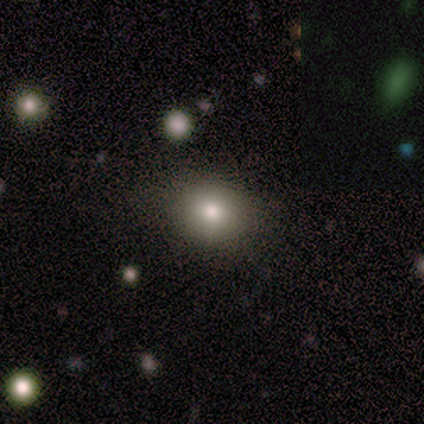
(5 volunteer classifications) A smooth galaxy with no disk features (100%) that is round (80%).

Vote fractions:
- Smooth or featured? smooth: 100% / featured or disk: 0% / star or artifact: 0%
- How rounded? round: 80% / in between: 20% / cigar-shaped: 0%
- Merging? none: 100% / minor disturbance: 0% / major disturbance: 0% / merger: 0%